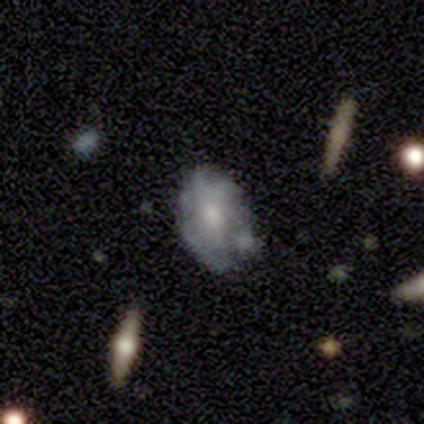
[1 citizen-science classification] smooth_or_featured: star or artifact (p=1.00)